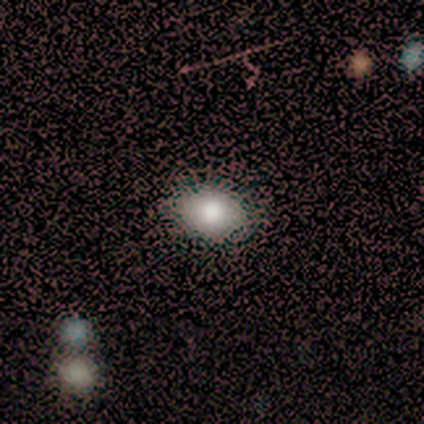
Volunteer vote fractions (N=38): Smooth or featured?
  - smooth: 87% *
  - featured or disk: 8%
  - star or artifact: 5%
How rounded?
  - in between: 82% *
  - round: 18%
  - cigar-shaped: 0%
Merging?
  - none: 69% *
  - minor disturbance: 8%
  - merger: 3%
  - major disturbance: 0%